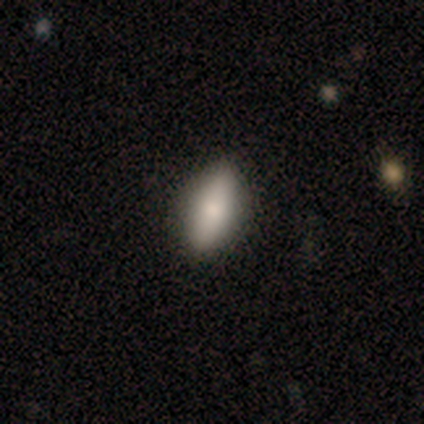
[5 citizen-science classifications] This is clearly a smooth galaxy (80%). How rounded: likely in between (75%). Merging: clearly none (80%).